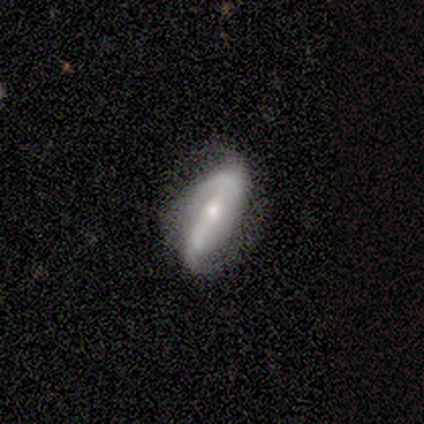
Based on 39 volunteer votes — Smooth or featured?
  - featured or disk: 77% *
  - smooth: 21%
  - star or artifact: 3%
Edge-on disk?
  - no: 93% *
  - yes: 7%
Bar?
  - strong: 54% *
  - no: 25%
  - weak: 21%
Spiral arms?
  - yes: 96% *
  - no: 4%
Spiral winding?
  - loose: 48% *
  - medium: 37%
  - tight: 15%
Spiral arm count?
  - 2: 81% *
  - can't tell: 15%
  - 3: 4%
  - 1: 0%
  - 4: 0%
  - more than 4: 0%
Bulge size?
  - small: 54% *
  - moderate: 39%
  - large: 7%
  - dominant: 0%
  - none: 0%
Merging?
  - none: 71% *
  - minor disturbance: 16%
  - major disturbance: 11%
  - merger: 3%